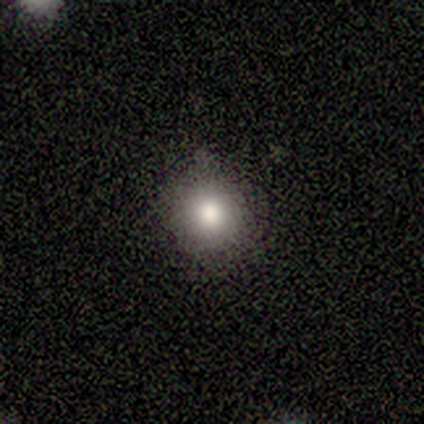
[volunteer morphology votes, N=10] Smooth or featured? 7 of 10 (70%) said smooth. How rounded? 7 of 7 (100%) said round. Merging? 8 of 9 (89%) said none.